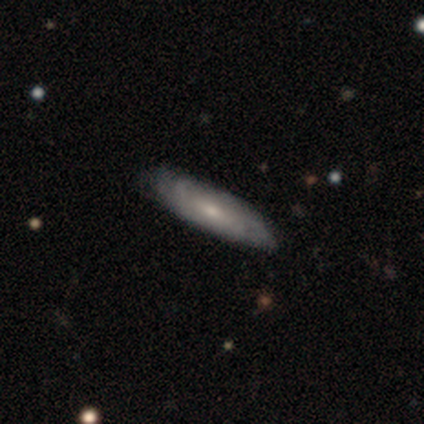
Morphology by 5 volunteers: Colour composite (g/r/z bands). It shows a featured or disk galaxy (60%) with no bar (67%), 2 (33%, tied with 3 and can't tell) tight (67%) spiral arms (100%) and a small central bulge (67%). Merging: none (60%).